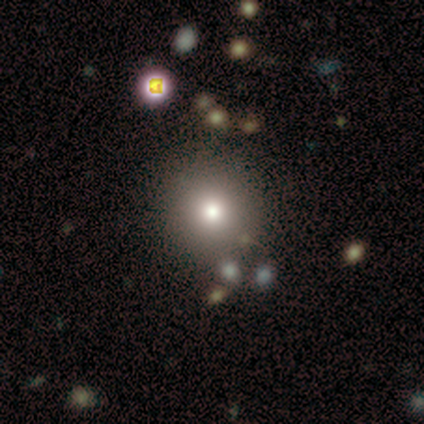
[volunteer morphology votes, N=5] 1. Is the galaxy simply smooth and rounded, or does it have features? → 40% smooth (tied), 40% featured or disk (tied), 20% star or artifact.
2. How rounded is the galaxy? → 100% in between, 0% round, 0% cigar-shaped.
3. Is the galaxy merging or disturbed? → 100% none, 0% minor disturbance, 0% major disturbance, 0% merger.